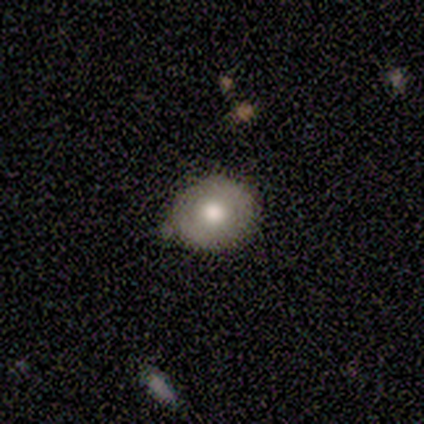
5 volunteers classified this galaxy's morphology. A featured or disk galaxy (60%) with no bar (100%), no spiral arms (100%) and a moderate central bulge (67%).

Vote fractions:
- Smooth or featured? featured or disk: 60% / star or artifact: 40% / smooth: 0%
- Edge-on disk? no: 100% / yes: 0%
- Bar? no: 100% / strong: 0% / weak: 0%
- Spiral arms? no: 100% / yes: 0%
- Bulge size? moderate: 67% / small: 33% / dominant: 0% / large: 0% / none: 0%
- Merging? none: 100% / minor disturbance: 0% / major disturbance: 0% / merger: 0%